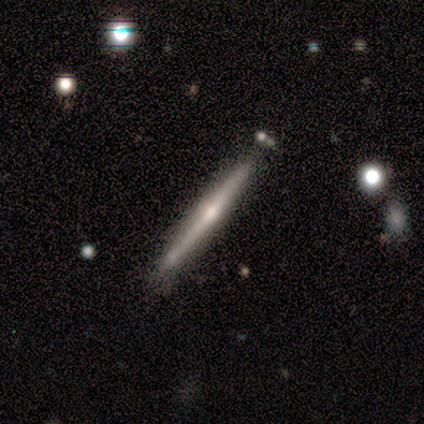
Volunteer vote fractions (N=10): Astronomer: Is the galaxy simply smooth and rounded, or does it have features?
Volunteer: featured or disk — 80%.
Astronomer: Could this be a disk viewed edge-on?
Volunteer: yes — 100%.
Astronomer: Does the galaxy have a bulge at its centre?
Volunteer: rounded — 62%.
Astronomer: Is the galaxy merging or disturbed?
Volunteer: none — 56% (runner-up: minor disturbance, 44%).